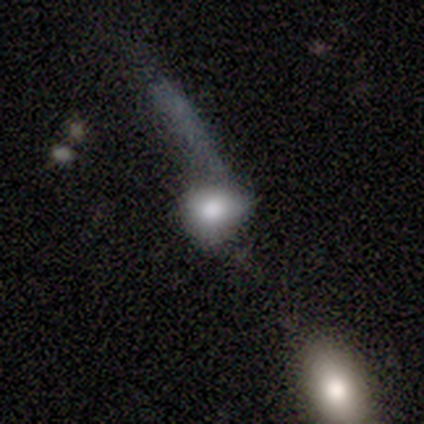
This is possibly a smooth galaxy (50%, tied with featured or disk). How rounded: clearly round (100%). Merging: possibly minor disturbance (50%).